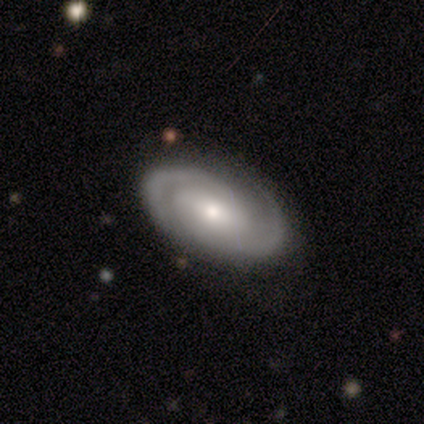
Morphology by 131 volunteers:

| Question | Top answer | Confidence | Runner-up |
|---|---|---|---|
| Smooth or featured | featured or disk | 84% | smooth (11%) |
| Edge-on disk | no | 96% | yes (4%) |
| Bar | no | 51% | weak (37%) |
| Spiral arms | yes | 98% | no (2%) |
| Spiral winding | tight | 60% | medium (34%) |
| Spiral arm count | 2 | 88% | 3 (7%) |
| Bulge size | moderate | 54% | small (36%) |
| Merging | none | 66% | minor disturbance (10%) |